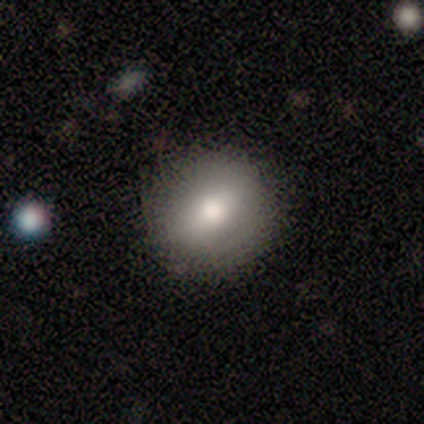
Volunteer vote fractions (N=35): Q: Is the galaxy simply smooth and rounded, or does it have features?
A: smooth — 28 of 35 (80%).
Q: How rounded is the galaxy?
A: round — 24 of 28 (86%).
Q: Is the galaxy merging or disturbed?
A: none — 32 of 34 (94%).